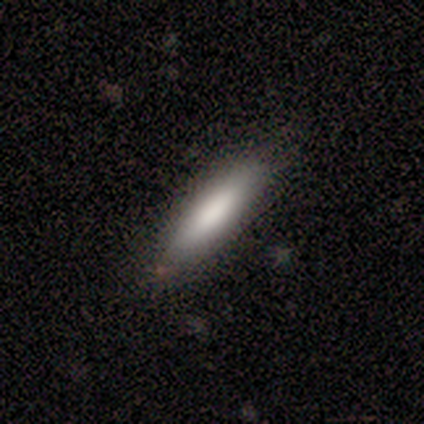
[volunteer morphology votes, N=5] smooth-or-featured: smooth: 80% | star or artifact: 20% | featured or disk: 0%
  how-rounded: cigar-shaped: 100% | round: 0% | in between: 0%
  merging: none: 75% | minor disturbance: 25% | major disturbance: 0% | merger: 0%